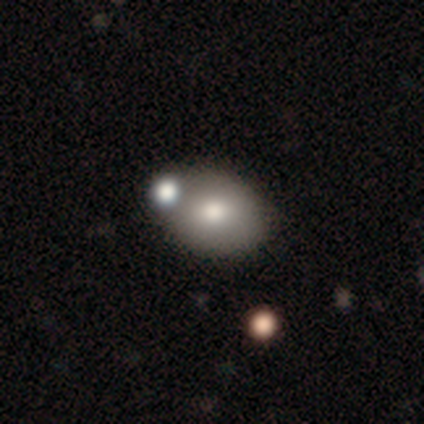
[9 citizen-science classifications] This is clearly a smooth galaxy (89%). How rounded: clearly in between (88%). Merging: likely none (78%).